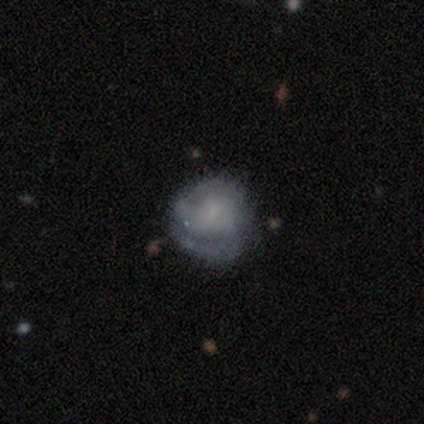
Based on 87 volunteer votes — This is possibly a featured or disk galaxy (57%). It is clearly not viewed edge-on (98%). Bar: possibly no (55%). Spiral arm pattern: likely yes (61%). Spiral arm count: possibly 2 (47%). Spiral winding: possibly tight (50%). Central bulge: possibly small (59%). Merging: possibly none (59%).